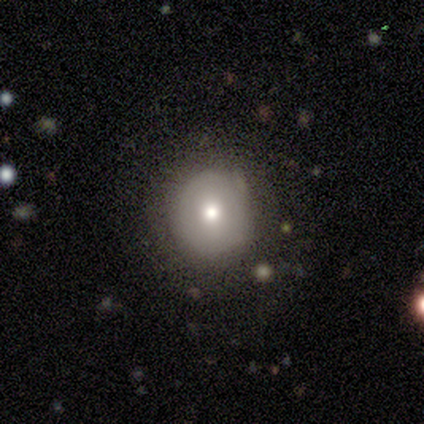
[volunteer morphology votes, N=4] A smooth galaxy with no disk features (75%) that is round (100%). Merging: none (75%).